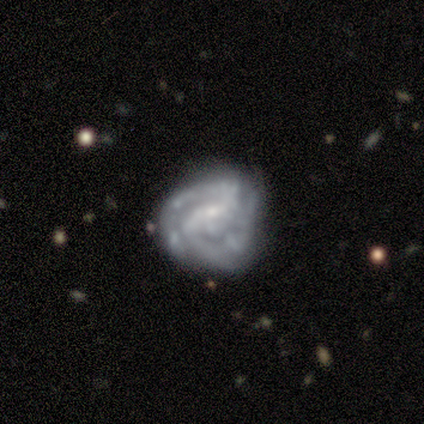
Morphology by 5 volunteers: Q: Smooth or featured?
A: featured or disk (100%)
Q: Edge-on disk?
A: no (100%)
Q: Bar?
A: no (80%); runner-up: weak (20%)
Q: Spiral arms?
A: yes (100%)
Q: Spiral winding?
A: tight (40%); tied with: medium (40%)
Q: Spiral arm count?
A: can't tell (60%); runner-up: 2 (40%)
Q: Bulge size?
A: small (40%); tied with: none (40%)
Q: Merging?
A: none (80%); runner-up: major disturbance (20%)